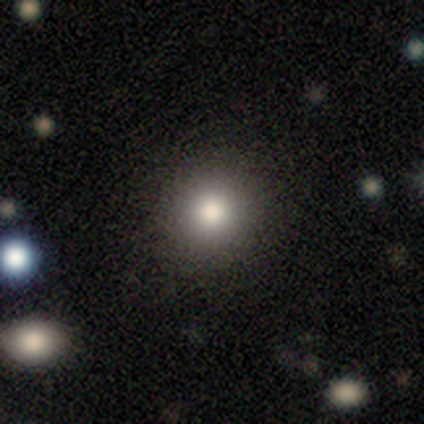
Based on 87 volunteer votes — A smooth galaxy with no disk features (84%) that is round (89%).

Vote fractions:
- Smooth or featured? smooth: 84% / star or artifact: 10% / featured or disk: 6%
- How rounded? round: 89% / in between: 11% / cigar-shaped: 0%
- Merging? none: 83% / minor disturbance: 14% / major disturbance: 3% / merger: 0%